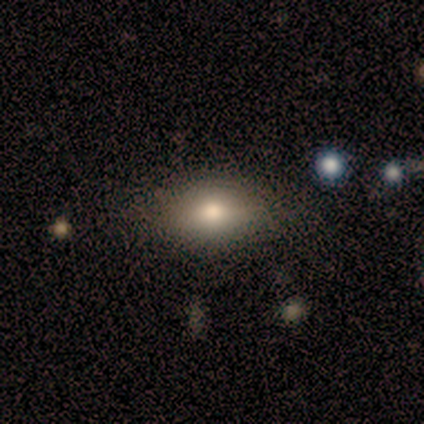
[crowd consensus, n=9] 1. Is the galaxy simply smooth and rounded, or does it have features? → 89% smooth, 11% featured or disk, 0% star or artifact.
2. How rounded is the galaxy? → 62% in between, 25% round, 12% cigar-shaped.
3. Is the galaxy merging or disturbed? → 67% none, 22% major disturbance, 11% minor disturbance, 0% merger.